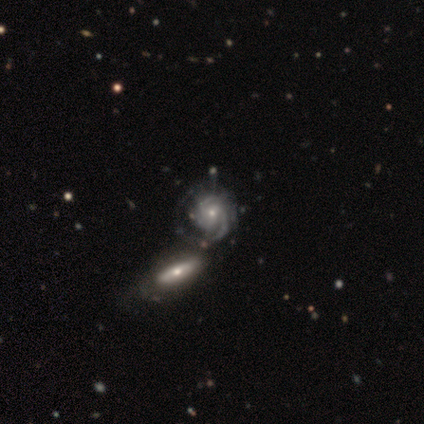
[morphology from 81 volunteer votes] Smooth or featured? featured or disk (89%)
Edge-on disk? no (94%)
Bar? no (65%)
Spiral arms? yes (99%)
Spiral winding? tight (66%)
Spiral arm count? 3 (36%)
Bulge size? small (63%)
Merging? merger (35%)